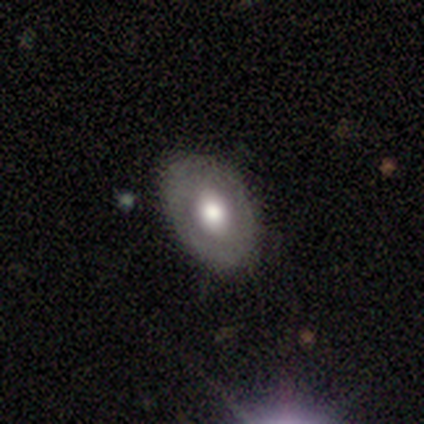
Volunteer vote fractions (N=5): This is clearly a smooth galaxy (80%). How rounded: clearly in between (100%). Merging: possibly none (50%).